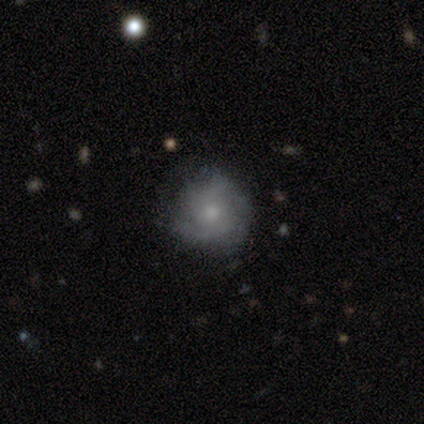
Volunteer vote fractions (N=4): Volunteers were most divided on "spiral winding" (2-way tie): tight: 50%, loose: 50%, medium: 0%; "spiral arm count" (2-way tie): 2: 50%, can't tell: 50%, 1: 0%, 3: 0%, 4: 0%, more than 4: 0%; "merging" (2-way tie): none: 50%, minor disturbance: 50%, major disturbance: 0%, merger: 0%. More confident: edge-on disk — no (100%); bar — no (100%); smooth or featured — featured or disk (75%); spiral arms — yes (67%); bulge size — small (67%).